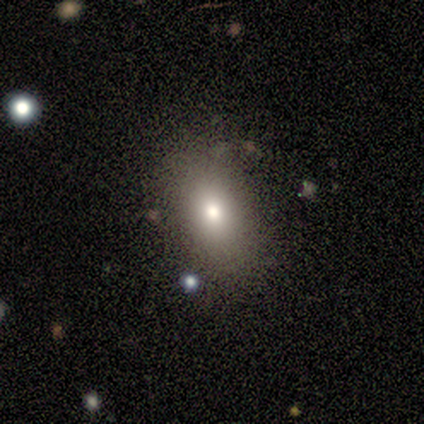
Smooth or featured?
  - smooth: 60% *
  - star or artifact: 40%
  - featured or disk: 0%
How rounded?
  - in between: 100% *
  - round: 0%
  - cigar-shaped: 0%
Merging?
  - none: 100% *
  - minor disturbance: 0%
  - major disturbance: 0%
  - merger: 0%